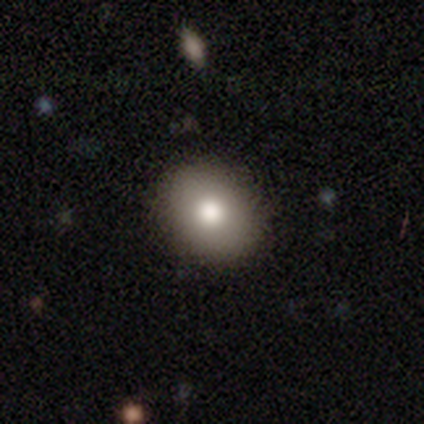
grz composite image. It shows a smooth galaxy with no disk features (74%) that is round (68%). Merging: none (94%).